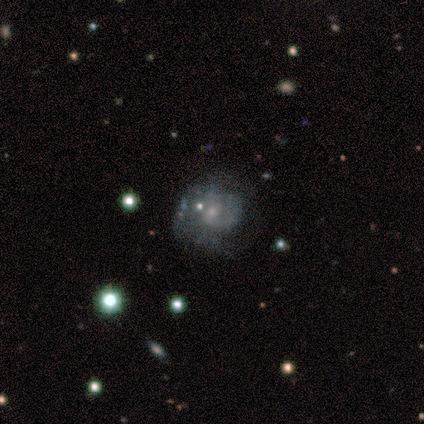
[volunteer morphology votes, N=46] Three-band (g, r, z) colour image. It shows a featured or disk galaxy (74%) with no bar (71%), tight (42%) spiral arms (71%) and a small central bulge (71%). Merging: none (63%).